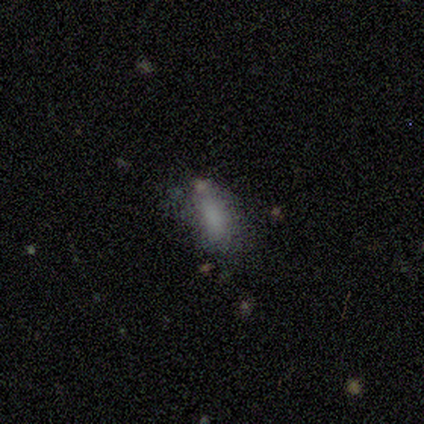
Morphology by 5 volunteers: Smooth or featured? smooth (100%)
How rounded? in between (80%)
Merging? none (100%)